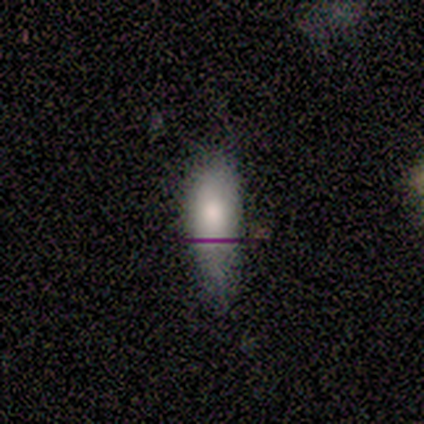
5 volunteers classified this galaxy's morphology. Smooth or featured? smooth (80%)
How rounded? cigar-shaped (75%)
Merging? minor disturbance (60%)